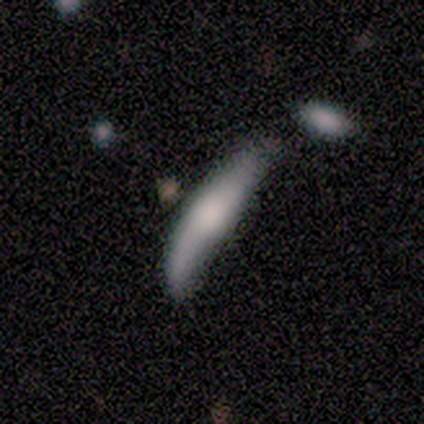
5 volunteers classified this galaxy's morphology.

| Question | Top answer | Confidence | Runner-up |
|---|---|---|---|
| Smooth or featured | featured or disk | 80% | smooth (20%) |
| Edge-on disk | yes | 100% | — |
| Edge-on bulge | rounded | 100% | — |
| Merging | none | 60% | minor disturbance (40%) |